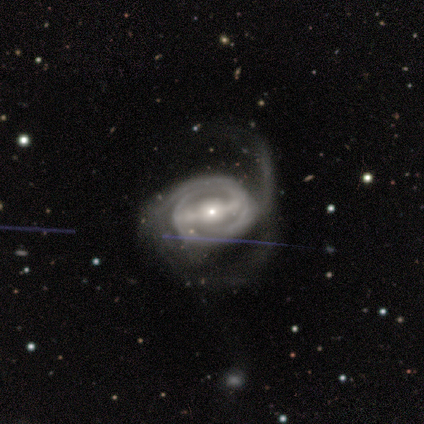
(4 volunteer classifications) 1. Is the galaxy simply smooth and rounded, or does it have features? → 100% featured or disk, 0% smooth, 0% star or artifact.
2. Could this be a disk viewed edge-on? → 100% no, 0% yes.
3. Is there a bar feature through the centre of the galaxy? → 50% strong (tied), 50% weak (tied), 0% no.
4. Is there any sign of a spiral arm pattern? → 100% yes, 0% no.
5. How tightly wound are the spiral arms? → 75% medium, 25% tight, 0% loose.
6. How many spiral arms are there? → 75% 2, 25% can't tell, 0% 1, 0% 3, 0% 4, 0% more than 4.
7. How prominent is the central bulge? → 50% moderate (tied), 50% small (tied), 0% dominant, 0% large, 0% none.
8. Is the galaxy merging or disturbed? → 50% major disturbance, 25% none, 25% minor disturbance, 0% merger.